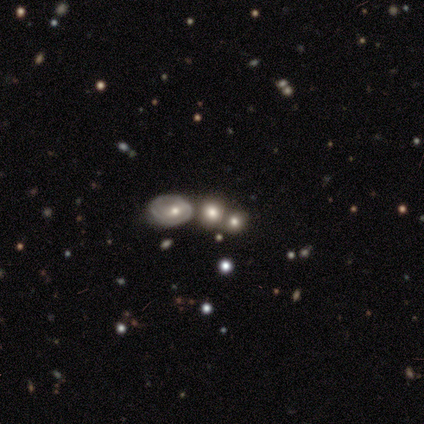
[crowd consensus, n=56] Overall: smooth (54%; featured or disk 25%). How rounded: round (63%; in between 37%). Merging: merger (48%; none 32%).